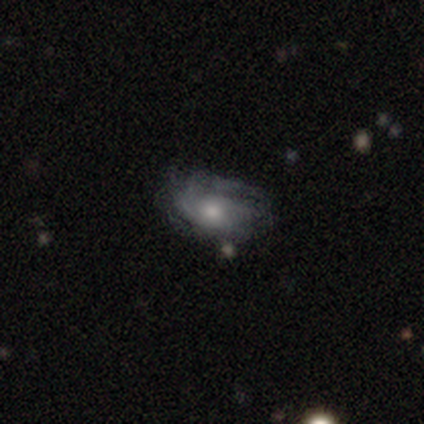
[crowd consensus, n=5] This is clearly a featured or disk galaxy (100%). It is clearly not viewed edge-on (80%). Bar: clearly no (100%). Spiral arm pattern: likely yes (75%). Spiral arm count: likely can't tell (67%). Spiral winding: likely medium (67%). Central bulge: likely moderate (75%). Merging: likely none (60%).